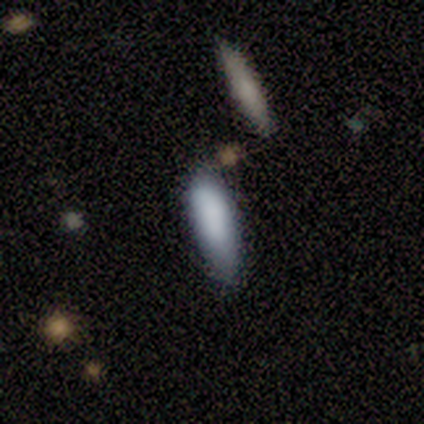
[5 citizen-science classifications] Overall: smooth (100%). How rounded: in between (100%). Merging: none (100%).